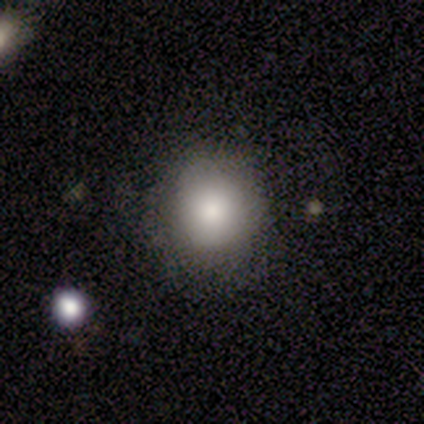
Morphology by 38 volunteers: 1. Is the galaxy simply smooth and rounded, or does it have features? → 95% smooth, 5% star or artifact, 0% featured or disk.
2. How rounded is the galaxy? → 92% round, 8% in between, 0% cigar-shaped.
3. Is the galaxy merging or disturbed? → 81% none, 8% minor disturbance, 8% major disturbance, 3% merger.